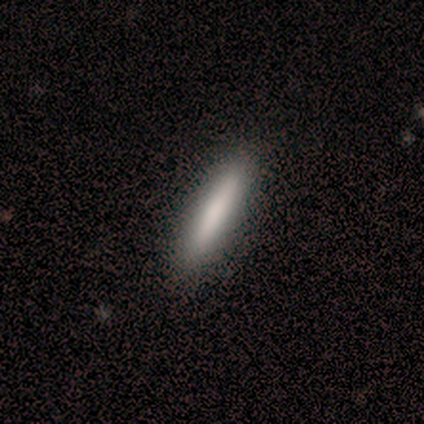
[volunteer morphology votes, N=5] Q: Smooth or featured?
A: smooth (80%); runner-up: star or artifact (20%)
Q: How rounded?
A: cigar-shaped (100%)
Q: Merging?
A: none (100%)